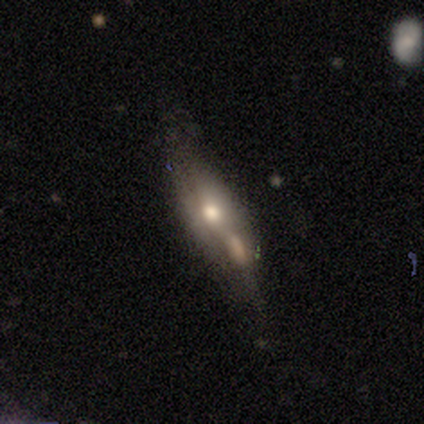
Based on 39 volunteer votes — Overall: featured or disk (59%; smooth 38%). Edge-on disk: yes (52%; no 48%). Edge-on bulge: rounded (83%). Merging: merger (39%; minor disturbance 16%).